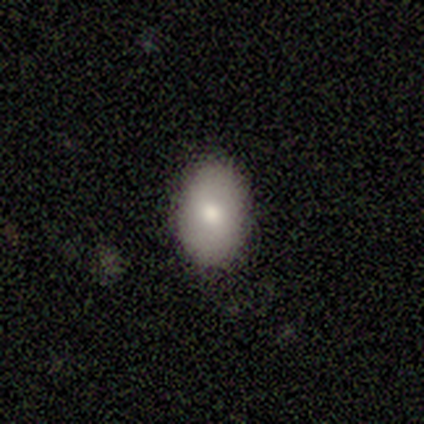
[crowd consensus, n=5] Overall: smooth (100%). How rounded: in between (80%). Merging: none (80%).